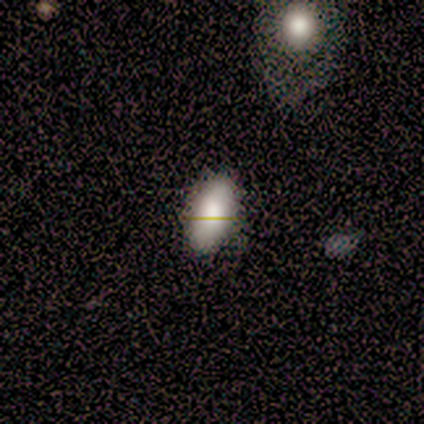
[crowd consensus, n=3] smooth-or-featured: smooth: 100% | featured or disk: 0% | star or artifact: 0%
  how-rounded: in between: 100% | round: 0% | cigar-shaped: 0%
  merging: none: 67% | minor disturbance: 33% | major disturbance: 0% | merger: 0%